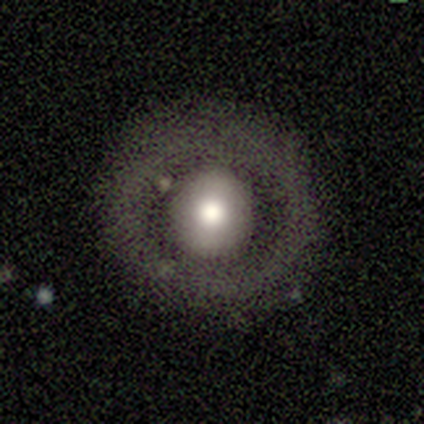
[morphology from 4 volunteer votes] Volunteers were most divided on "bulge size": large: 67%, moderate: 33%, dominant: 0%, small: 0%, none: 0%. More confident: edge-on disk — no (100%); bar — no (100%); spiral arms — no (100%); merging — none (100%); smooth or featured — featured or disk (75%).